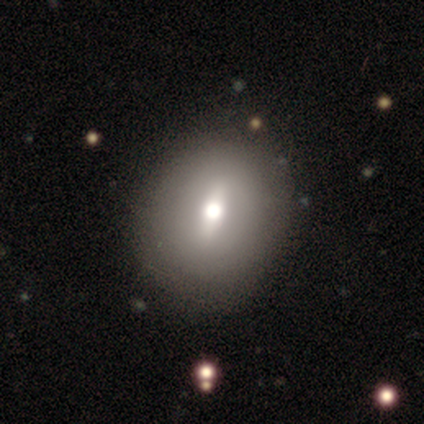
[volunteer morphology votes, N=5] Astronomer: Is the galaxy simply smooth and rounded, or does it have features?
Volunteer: featured or disk — 60% (runner-up: smooth, 40%).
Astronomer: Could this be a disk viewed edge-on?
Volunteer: no — 100%.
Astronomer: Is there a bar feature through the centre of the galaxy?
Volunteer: strong — 67%.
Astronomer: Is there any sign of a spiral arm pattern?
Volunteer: no — 67%.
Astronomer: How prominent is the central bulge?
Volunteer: moderate — 67%.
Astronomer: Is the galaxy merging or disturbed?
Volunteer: none — 100%.